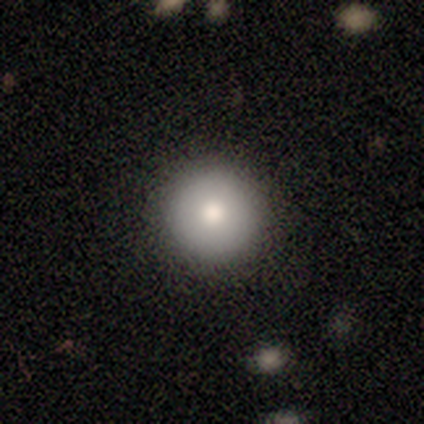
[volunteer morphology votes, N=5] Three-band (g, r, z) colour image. It shows a smooth galaxy with no disk features (100%) that is round (100%). Merging: none (100%).